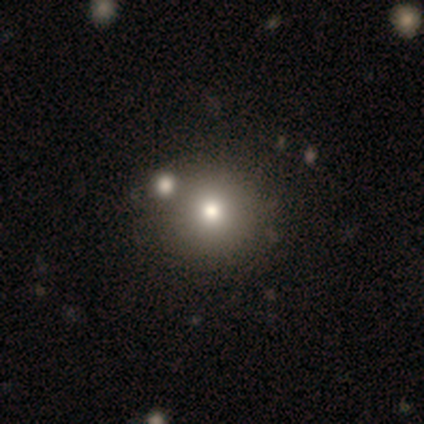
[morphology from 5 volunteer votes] This is marginally a smooth galaxy (40%, tied with featured or disk). How rounded: clearly round (100%). Merging: clearly none (100%).